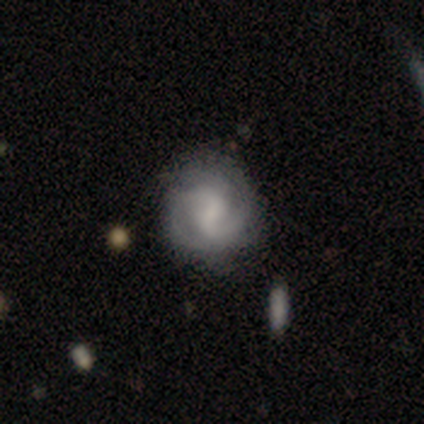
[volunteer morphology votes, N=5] A featured or disk galaxy (100%) with a weak bar (80%), 2 (75%) tight (50%, tied with medium) spiral arms (80%) and a small central bulge (60%). Merging: none (80%).